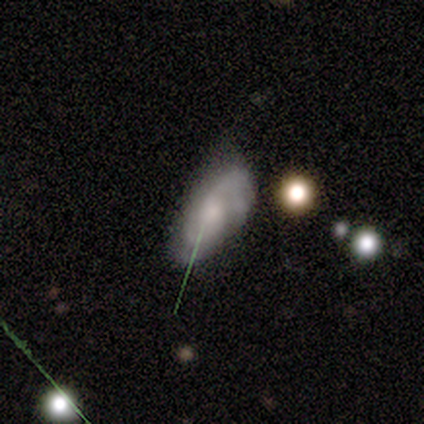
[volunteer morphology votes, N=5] Q: Smooth or featured?
A: featured or disk (100%)
Q: Edge-on disk?
A: no (100%)
Q: Bar?
A: no (60%); runner-up: weak (40%)
Q: Spiral arms?
A: yes (100%)
Q: Spiral winding?
A: medium (40%); tied with: loose (40%)
Q: Spiral arm count?
A: 2 (80%); runner-up: 4 (20%)
Q: Bulge size?
A: small (40%); runner-up: large (20%)
Q: Merging?
A: none (60%); runner-up: minor disturbance (20%)